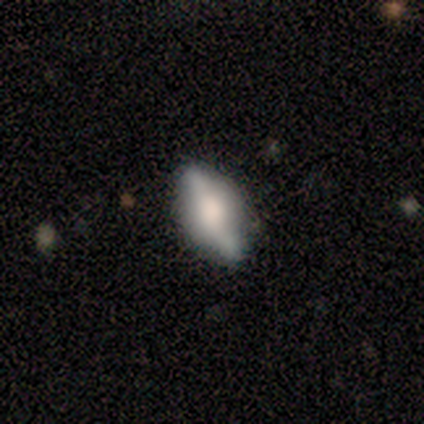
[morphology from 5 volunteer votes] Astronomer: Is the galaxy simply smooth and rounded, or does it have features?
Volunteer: featured or disk — 60% (runner-up: smooth, 40%).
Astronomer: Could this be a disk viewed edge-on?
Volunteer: yes — 67%.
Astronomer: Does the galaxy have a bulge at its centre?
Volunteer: boxy — 50%, tied with rounded at 50%.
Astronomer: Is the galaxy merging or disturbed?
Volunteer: none — 80%.